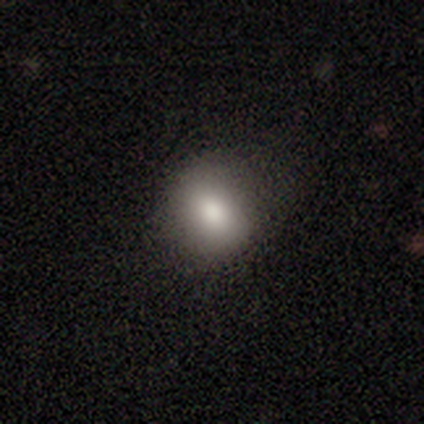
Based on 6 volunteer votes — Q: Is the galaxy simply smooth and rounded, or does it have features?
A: smooth — 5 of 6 (83%).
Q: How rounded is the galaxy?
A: round — 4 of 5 (80%).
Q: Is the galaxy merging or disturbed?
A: none — 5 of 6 (83%).